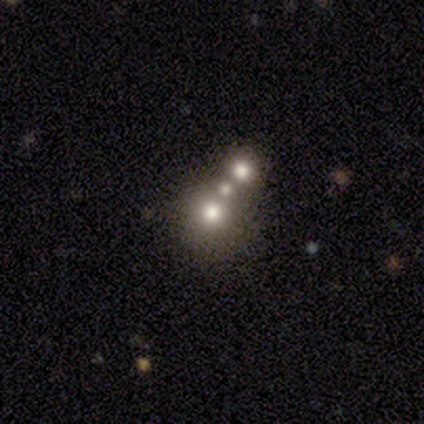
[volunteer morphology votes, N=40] Smooth or featured? smooth (45%)
How rounded? round (78%)
Merging? none (53%)